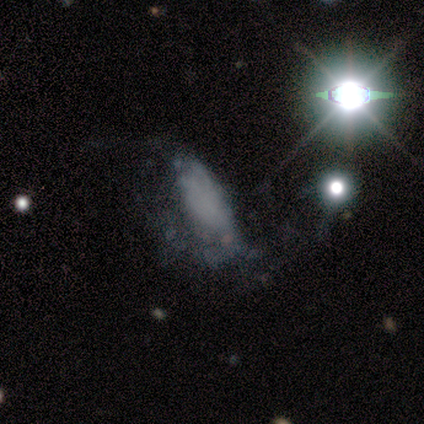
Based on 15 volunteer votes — Smooth or featured: smooth — 47% (star or artifact — 33%)
How rounded: in between — 86% (cigar-shaped — 14%)
Merging: major disturbance — 70% (none — 10%)